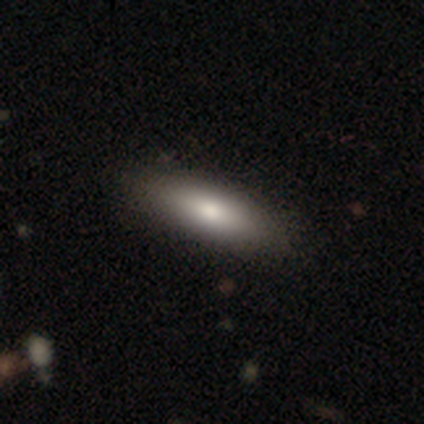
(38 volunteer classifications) Volunteers were most divided on "how rounded": in between: 71%, cigar-shaped: 26%, round: 3%. More confident: smooth or featured — smooth (82%); merging — none (73%).